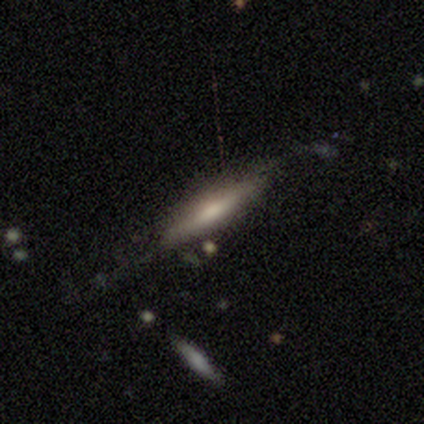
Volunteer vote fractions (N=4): Smooth or featured? 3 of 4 (75%) said smooth. How rounded? 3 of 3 (100%) said cigar-shaped. Merging? 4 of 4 (100%) said none.